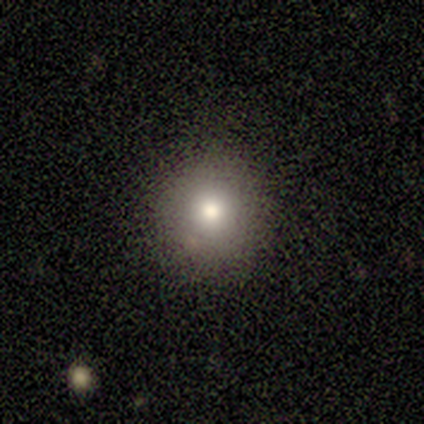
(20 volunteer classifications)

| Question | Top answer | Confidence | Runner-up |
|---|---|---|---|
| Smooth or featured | smooth | 75% | star or artifact (15%) |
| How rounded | round | 100% | — |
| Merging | none | 100% | — |